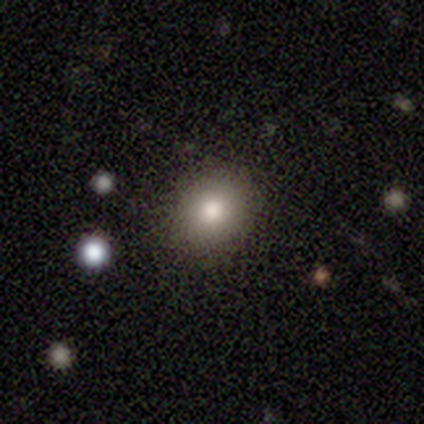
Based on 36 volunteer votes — Smooth or featured? smooth (81%)
How rounded? round (76%)
Merging? none (91%)